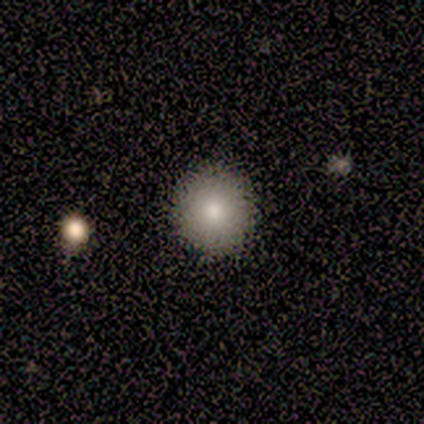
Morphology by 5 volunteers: This appears to be a smooth galaxy with no disk features (100%) that is round (100%). Merging: none (100%).